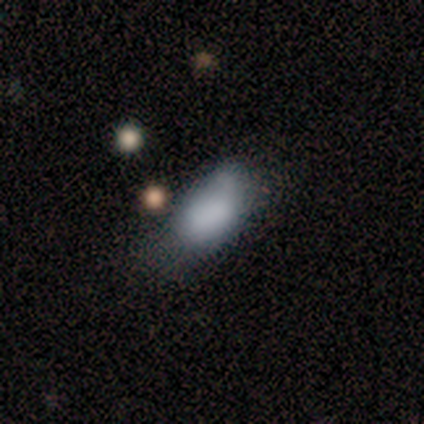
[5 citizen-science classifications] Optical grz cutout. It shows a smooth galaxy with no disk features (80%) that is in between round and cigar-shaped (100%). Merging: minor disturbance (40%, tied with major disturbance).